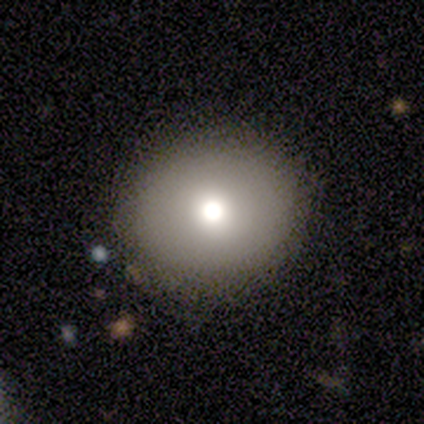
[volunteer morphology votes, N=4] Smooth or featured? 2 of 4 (50%, tied with featured or disk) said smooth. How rounded? 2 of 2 (100%) said round. Merging? 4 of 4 (100%) said none.